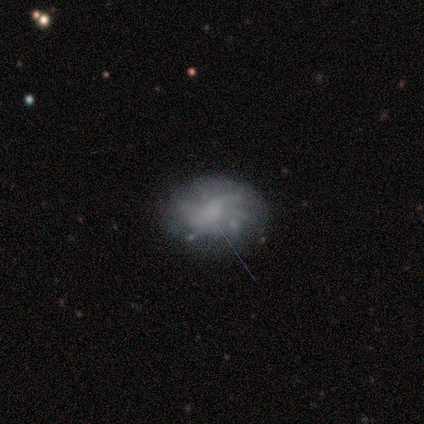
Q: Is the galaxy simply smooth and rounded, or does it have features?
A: featured or disk — 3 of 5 (60%).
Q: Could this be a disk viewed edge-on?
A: no — 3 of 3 (100%).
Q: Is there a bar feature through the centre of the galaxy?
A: no — 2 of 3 (67%).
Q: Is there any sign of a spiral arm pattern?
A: yes — 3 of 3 (100%).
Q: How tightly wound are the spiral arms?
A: tight — 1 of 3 (33%, tied with medium and loose).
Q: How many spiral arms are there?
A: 2 — 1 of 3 (33%, tied with 3 and can't tell).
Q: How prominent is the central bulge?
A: small — 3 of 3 (100%).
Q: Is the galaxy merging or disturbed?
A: none — 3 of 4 (75%).